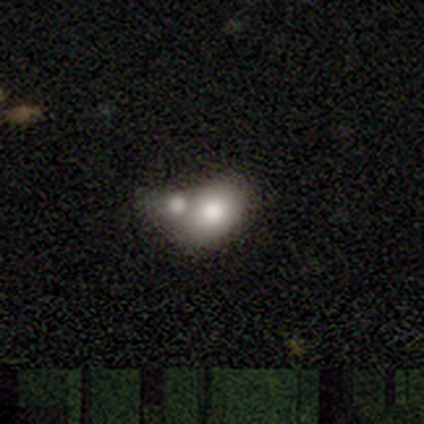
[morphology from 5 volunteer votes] A smooth galaxy with no disk features (100%) that is in between round and cigar-shaped (100%).

Vote fractions:
- Smooth or featured? smooth: 100% / featured or disk: 0% / star or artifact: 0%
- How rounded? in between: 100% / round: 0% / cigar-shaped: 0%
- Merging? merger: 80% / major disturbance: 20% / none: 0% / minor disturbance: 0%